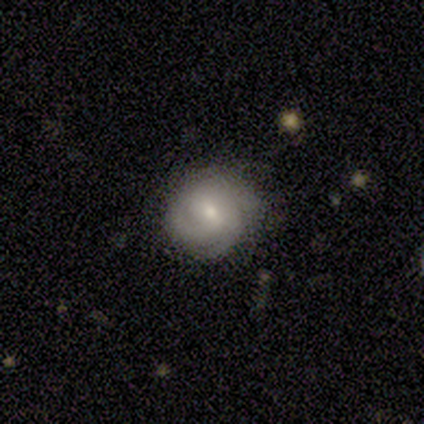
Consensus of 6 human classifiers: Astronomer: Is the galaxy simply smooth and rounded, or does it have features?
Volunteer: featured or disk — 83%.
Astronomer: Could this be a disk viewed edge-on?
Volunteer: no — 100%.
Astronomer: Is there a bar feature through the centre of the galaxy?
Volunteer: weak — 80%.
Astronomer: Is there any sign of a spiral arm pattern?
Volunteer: yes — 100%.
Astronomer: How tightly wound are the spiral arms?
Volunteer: tight — 80%.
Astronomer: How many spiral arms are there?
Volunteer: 3 — 60%.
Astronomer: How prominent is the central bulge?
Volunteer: moderate — 60% (runner-up: small, 40%).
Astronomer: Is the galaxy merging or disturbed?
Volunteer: none — 83%.